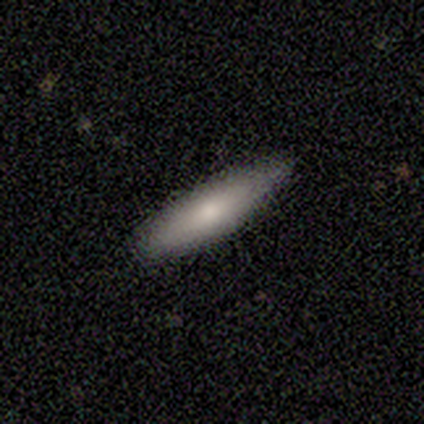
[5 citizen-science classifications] Smooth or featured: smooth — 100%
How rounded: cigar-shaped — 60% (in between — 40%)
Merging: none — 60% (minor disturbance — 40%)